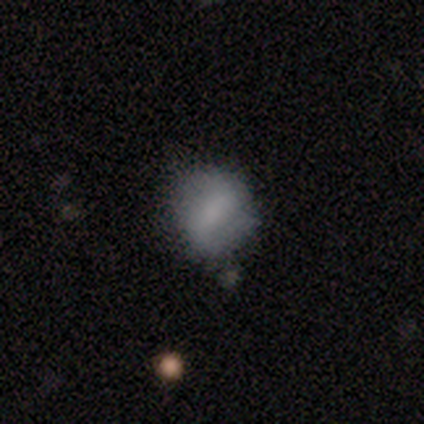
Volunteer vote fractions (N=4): Smooth or featured: smooth — 100%
How rounded: round — 50% (tied with in between — 50%)
Merging: none — 75% (minor disturbance — 25%)